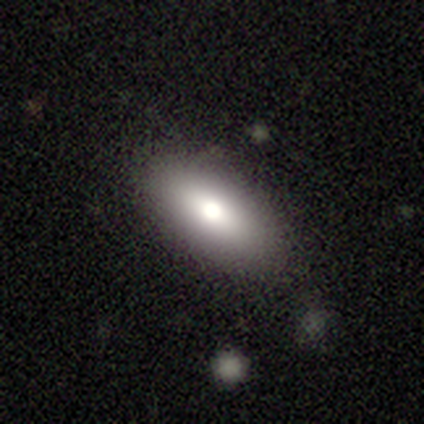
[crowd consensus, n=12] A smooth galaxy with no disk features (83%) that is in between round and cigar-shaped (80%). Merging: none (58%).